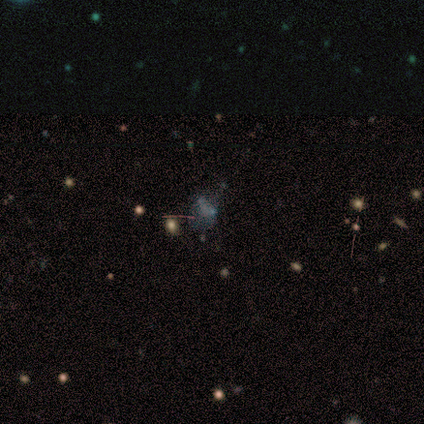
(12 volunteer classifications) Smooth or featured?
  - star or artifact: 50% *
  - featured or disk: 33%
  - smooth: 17%